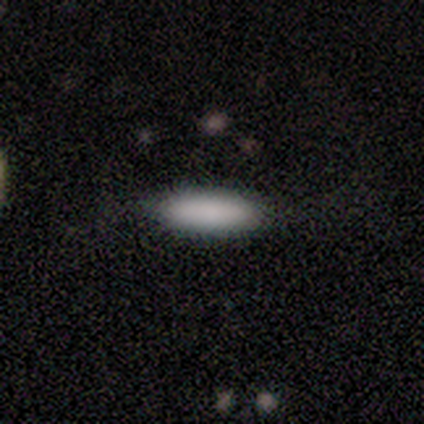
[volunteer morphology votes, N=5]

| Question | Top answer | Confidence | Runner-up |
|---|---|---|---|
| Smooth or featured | smooth | 60% | featured or disk (20%) |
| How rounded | cigar-shaped | 67% | in between (33%) |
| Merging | none | 100% | — |